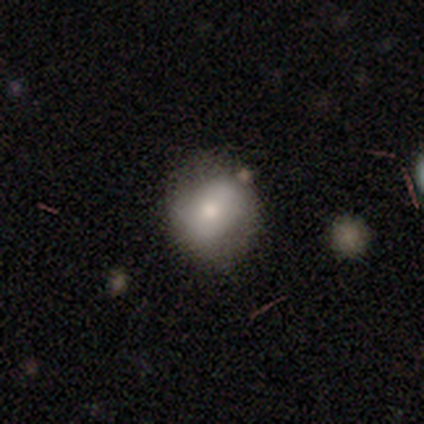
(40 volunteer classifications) A smooth galaxy with no disk features (75%) that is round (70%). Merging: none (65%).